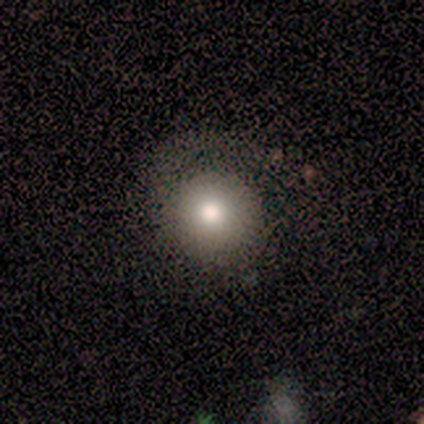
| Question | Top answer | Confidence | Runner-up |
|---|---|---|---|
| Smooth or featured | smooth | 72% | featured or disk (18%) |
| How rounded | round | 100% | — |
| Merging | none | 44% | minor disturbance (17%) |